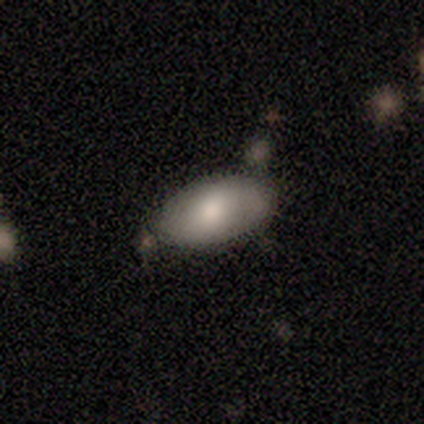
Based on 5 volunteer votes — smooth 100%, featured or disk 0%, star or artifact 0%. Down the decision tree: how rounded — in between (80%); merging — none (80%).